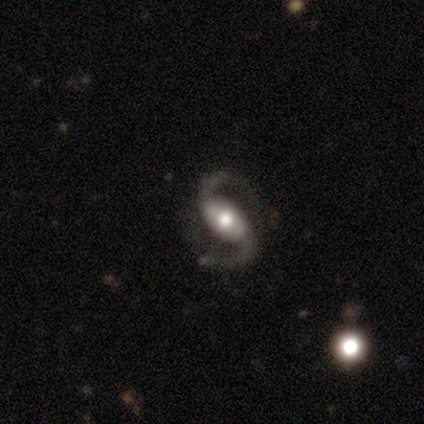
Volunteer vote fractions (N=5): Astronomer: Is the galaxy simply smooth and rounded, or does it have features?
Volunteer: featured or disk — 100%.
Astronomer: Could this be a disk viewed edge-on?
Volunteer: no — 100%.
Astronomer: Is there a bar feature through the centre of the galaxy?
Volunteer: strong — 40%, tied with no at 40%.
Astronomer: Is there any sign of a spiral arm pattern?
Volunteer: yes — 100%.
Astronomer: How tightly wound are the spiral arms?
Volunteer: loose — 60% (runner-up: medium, 40%).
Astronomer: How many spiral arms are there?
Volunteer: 2 — 100%.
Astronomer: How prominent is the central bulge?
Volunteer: moderate — 60% (runner-up: large, 40%).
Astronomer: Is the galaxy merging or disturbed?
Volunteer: none — 100%.